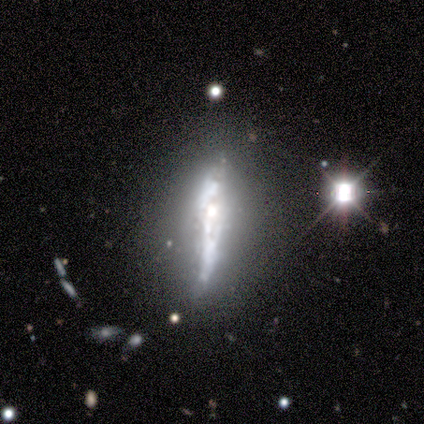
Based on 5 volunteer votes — Smooth or featured: featured or disk — 60% (smooth — 20%)
Edge-on disk: yes — 67% (no — 33%)
Edge-on bulge: none — 50% (tied with rounded — 50%)
Merging: none — 100%